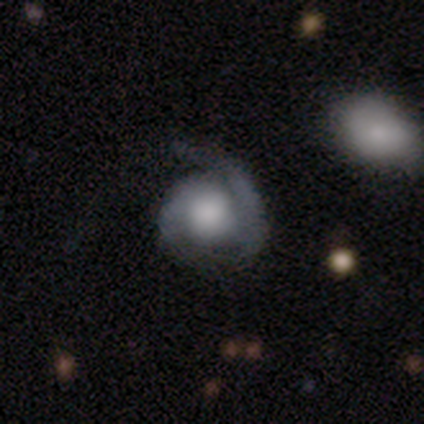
Smooth or featured?
  - featured or disk: 60% *
  - smooth: 40%
  - star or artifact: 0%
Edge-on disk?
  - no: 100% *
  - yes: 0%
Bar?
  - no: 67% *
  - weak: 33%
  - strong: 0%
Spiral arms?
  - yes: 100% *
  - no: 0%
Spiral winding?
  - tight: 100% *
  - medium: 0%
  - loose: 0%
Spiral arm count?
  - 1: 100% *
  - 2: 0%
  - 3: 0%
  - 4: 0%
  - more than 4: 0%
  - can't tell: 0%
Bulge size?
  - large: 67% *
  - small: 33%
  - dominant: 0%
  - moderate: 0%
  - none: 0%
Merging?
  - none: 40% * (tied)
  - major disturbance: 40% * (tied)
  - minor disturbance: 20%
  - merger: 0%